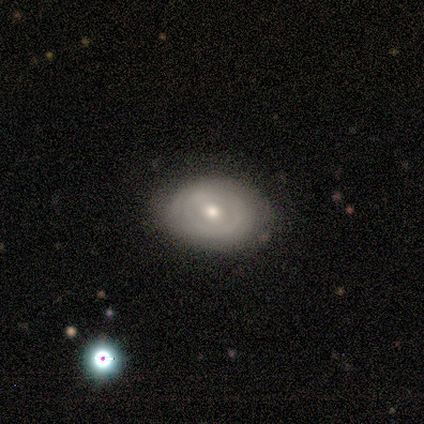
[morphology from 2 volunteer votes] Smooth or featured? 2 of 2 (100%) said featured or disk. Edge-on disk? 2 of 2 (100%) said no. Bar? 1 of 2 (50%, tied with no) said weak. Spiral arms? 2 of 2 (100%) said no. Bulge size? 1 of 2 (50%, tied with small) said moderate. Merging? 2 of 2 (100%) said none.